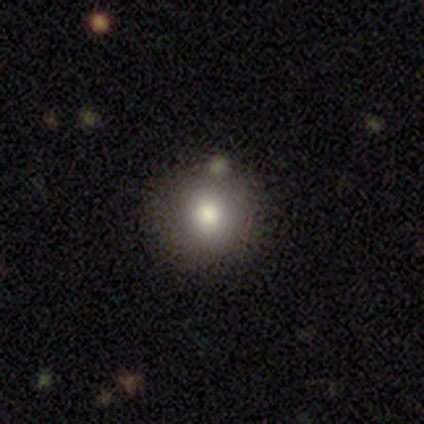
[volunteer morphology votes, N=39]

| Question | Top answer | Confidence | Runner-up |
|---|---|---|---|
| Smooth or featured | smooth | 82% | star or artifact (15%) |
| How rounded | round | 94% | in between (6%) |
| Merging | none | 85% | minor disturbance (9%) |